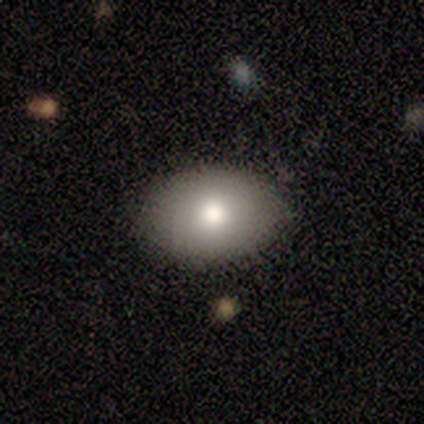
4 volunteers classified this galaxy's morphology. Smooth or featured? 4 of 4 (100%) said smooth. How rounded? 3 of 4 (75%) said in between. Merging? 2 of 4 (50%, tied with minor disturbance) said none.